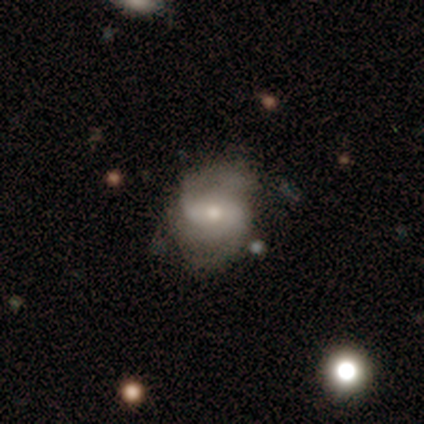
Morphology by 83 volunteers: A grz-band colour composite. It shows a featured or disk galaxy (80%) with a weak bar (45%), 2 (73%) medium (47%) spiral arms (94%) and a moderate central bulge (48%, tied with small). Merging: none (68%).